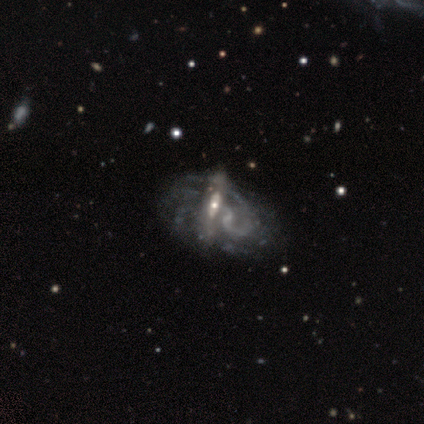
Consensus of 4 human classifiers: Smooth or featured? 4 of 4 (100%) said featured or disk. Edge-on disk? 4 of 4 (100%) said no. Bar? 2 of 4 (50%, tied with no) said weak. Spiral arms? 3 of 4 (75%) said yes. Spiral winding? 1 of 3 (33%, tied with medium and loose) said tight. Spiral arm count? 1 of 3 (33%, tied with more than 4 and can't tell) said 2. Bulge size? 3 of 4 (75%) said small. Merging? 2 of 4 (50%) said none.